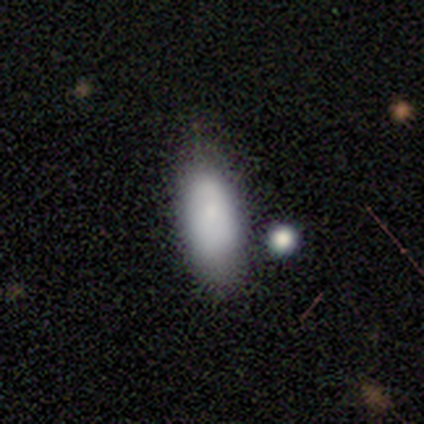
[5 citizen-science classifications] Overall: smooth (80%). How rounded: in between (100%). Merging: none (80%).